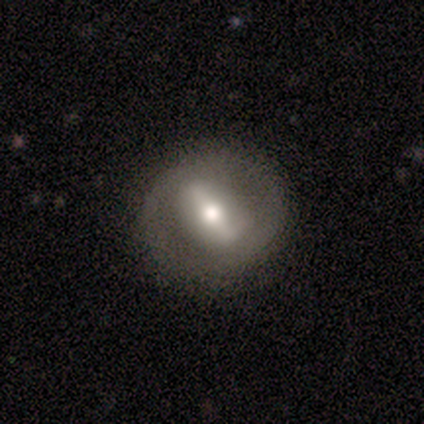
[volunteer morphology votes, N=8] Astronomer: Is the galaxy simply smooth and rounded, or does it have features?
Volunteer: featured or disk — 75%.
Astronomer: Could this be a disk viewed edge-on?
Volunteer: no — 83%.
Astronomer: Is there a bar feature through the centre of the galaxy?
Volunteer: strong — 80%.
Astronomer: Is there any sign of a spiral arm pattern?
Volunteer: no — 100%.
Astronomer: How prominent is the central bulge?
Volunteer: moderate — 100%.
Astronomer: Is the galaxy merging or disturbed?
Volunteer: none — 88%.